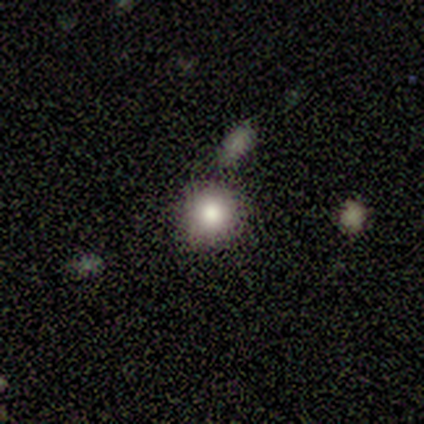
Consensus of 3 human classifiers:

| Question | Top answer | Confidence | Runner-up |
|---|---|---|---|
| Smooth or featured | smooth | 67% | star or artifact (33%) |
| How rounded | round | 100% | — |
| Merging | none | 100% | — |